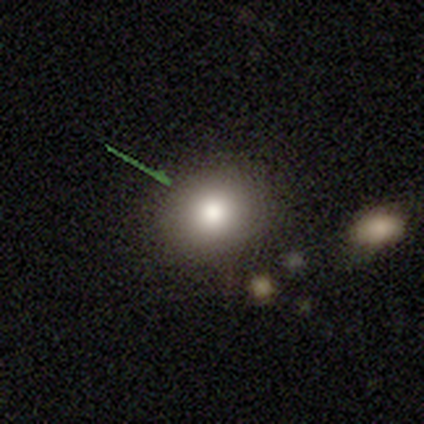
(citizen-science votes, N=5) This appears to be a smooth galaxy with no disk features (80%) that is round (50%, tied with in between). Merging: none (100%).